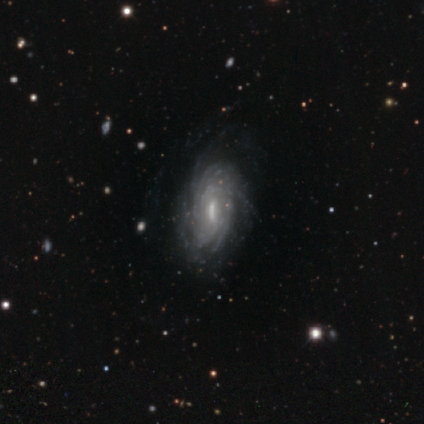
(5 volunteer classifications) smooth_or_featured: featured or disk (p=1.00)
disk_edge_on: no (p=1.00)
bar: weak (p=0.80) [alt: strong p=0.20]
has_spiral_arms: yes (p=1.00)
spiral_winding: tight (p=0.60) [alt: medium p=0.20]
spiral_arm_count: 4 (p=0.60) [alt: more than 4 p=0.40]
bulge_size: moderate (p=0.40) [tied with: small p=0.40]
merging: none (p=0.80) [alt: major disturbance p=0.20]